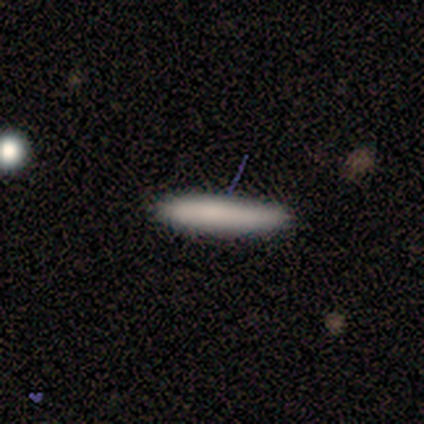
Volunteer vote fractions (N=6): Smooth or featured?
  - smooth: 67% *
  - featured or disk: 17%
  - star or artifact: 17%
How rounded?
  - cigar-shaped: 100% *
  - round: 0%
  - in between: 0%
Merging?
  - none: 80% *
  - minor disturbance: 20%
  - major disturbance: 0%
  - merger: 0%